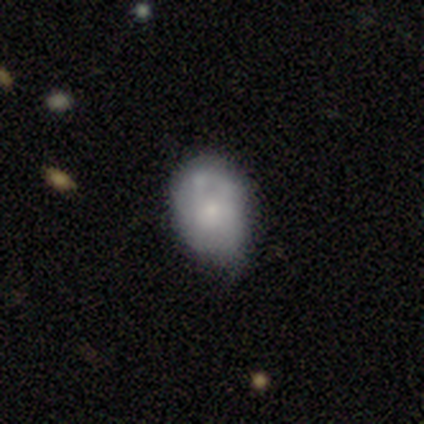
smooth 64%, featured or disk 36%, star or artifact 0%. Down the decision tree: how rounded — in between (80%); merging — minor disturbance (56%).